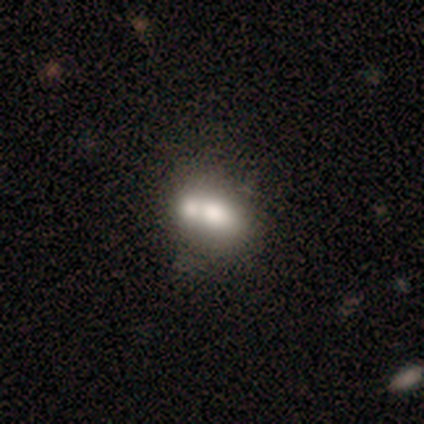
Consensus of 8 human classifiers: This appears to be a smooth galaxy with no disk features (75%) that is in between round and cigar-shaped (67%). Merging: merger (71%).